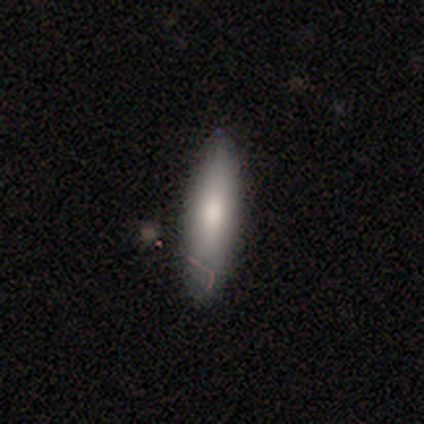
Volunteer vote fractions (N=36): smooth 67%, featured or disk 28%, star or artifact 6%. Down the decision tree: how rounded — cigar-shaped (75%); merging — none (79%).